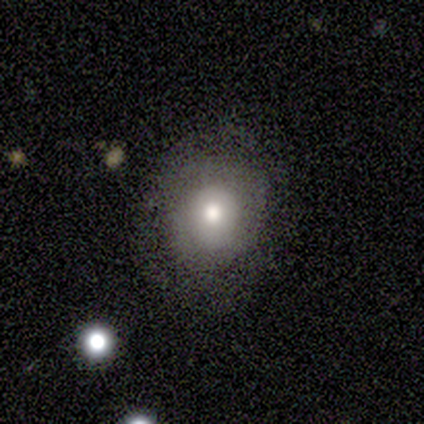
smooth_or_featured: smooth (p=0.50) [alt: featured or disk p=0.25]
how_rounded: round (p=1.00)
merging: none (p=1.00)